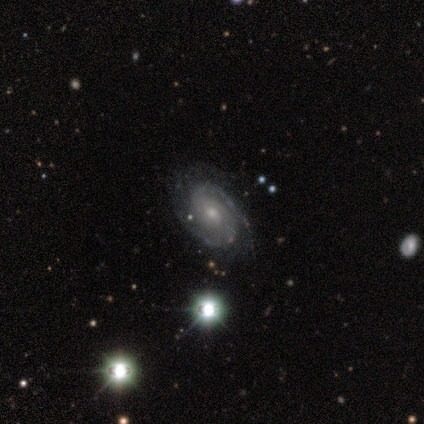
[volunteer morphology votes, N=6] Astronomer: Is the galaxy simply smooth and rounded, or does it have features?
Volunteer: featured or disk — 100%.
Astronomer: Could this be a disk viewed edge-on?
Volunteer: no — 100%.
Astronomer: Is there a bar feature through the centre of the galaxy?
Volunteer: no — 67%.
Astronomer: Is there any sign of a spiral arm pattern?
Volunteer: yes — 83%.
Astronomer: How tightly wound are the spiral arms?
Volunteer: medium — 80%.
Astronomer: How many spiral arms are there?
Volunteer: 2 — 40%, tied with can't tell at 40%.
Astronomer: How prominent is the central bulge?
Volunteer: small — 67%.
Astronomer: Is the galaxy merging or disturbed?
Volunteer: none — 67%.